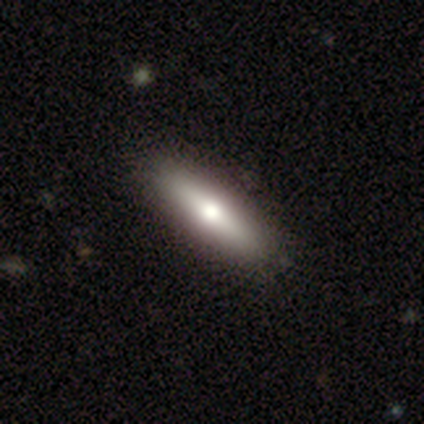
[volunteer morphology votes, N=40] A smooth galaxy with no disk features (50%) that is cigar-shaped (65%).

Vote fractions:
- Smooth or featured? smooth: 50% / featured or disk: 42% / star or artifact: 8%
- How rounded? cigar-shaped: 65% / in between: 35% / round: 0%
- Merging? none: 49% / minor disturbance: 3% / major disturbance: 0% / merger: 0%